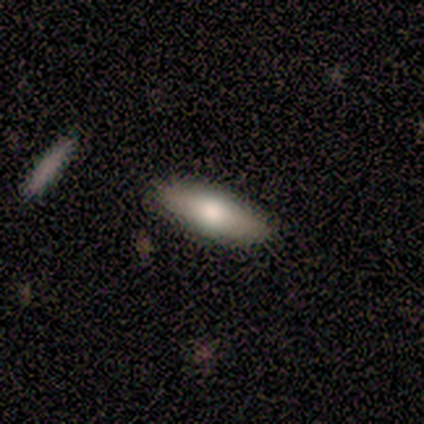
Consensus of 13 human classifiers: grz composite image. It shows a featured or disk galaxy (54%) viewed edge-on (57%) with a rounded central bulge (100%). Merging: none (92%).